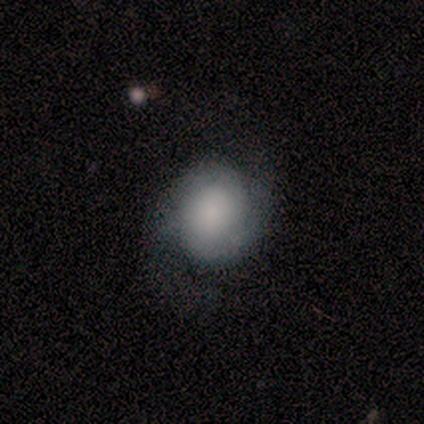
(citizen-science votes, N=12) Smooth or featured: featured or disk — 67% (smooth — 25%)
Edge-on disk: no — 100%
Bar: no — 88% (weak — 12%)
Spiral arms: yes — 88% (no — 12%)
Spiral winding: medium — 57% (tight — 29%)
Spiral arm count: 2 — 86% (can't tell — 14%)
Bulge size: large — 50% (moderate — 25%)
Merging: none — 73% (major disturbance — 18%)